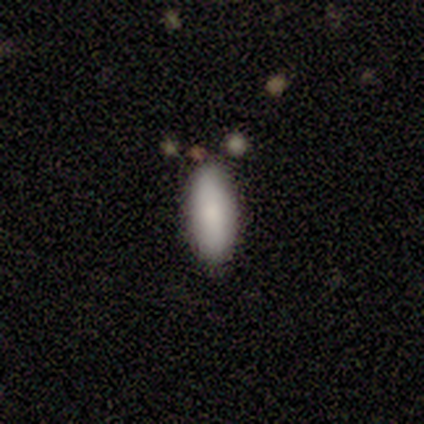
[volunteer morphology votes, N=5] smooth 80%, featured or disk 20%, star or artifact 0%. Down the decision tree: how rounded — in between (75%); merging — none (100%).